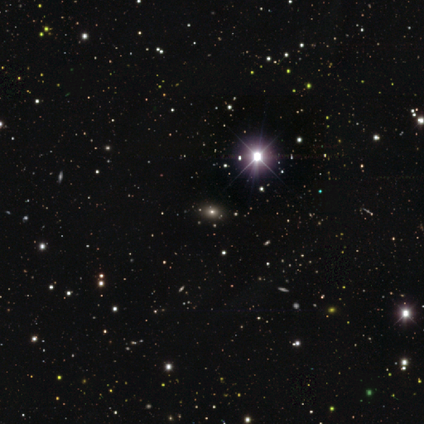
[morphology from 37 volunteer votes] smooth_or_featured: star or artifact (p=0.76) [alt: smooth p=0.16]